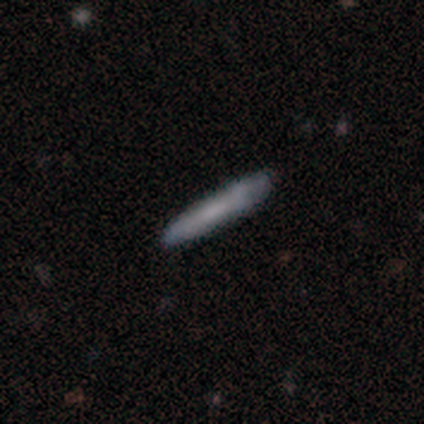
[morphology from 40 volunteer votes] smooth-or-featured: smooth: 55% | featured or disk: 32% | star or artifact: 12%
  how-rounded: cigar-shaped: 95% | in between: 5% | round: 0%
  merging: none: 94% | minor disturbance: 6% | major disturbance: 0% | merger: 0%